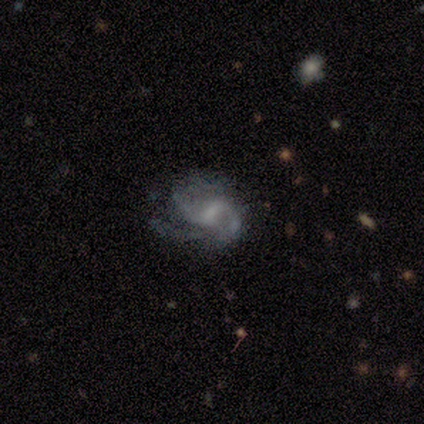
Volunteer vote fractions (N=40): featured or disk 90%, star or artifact 8%, smooth 2%. Down the decision tree: edge-on disk — no (100%); bar — weak (58%); spiral arms — yes (86%); spiral arm count — 2 (42%); spiral winding — loose (48%); bulge size — small (47%); merging — none (46%).